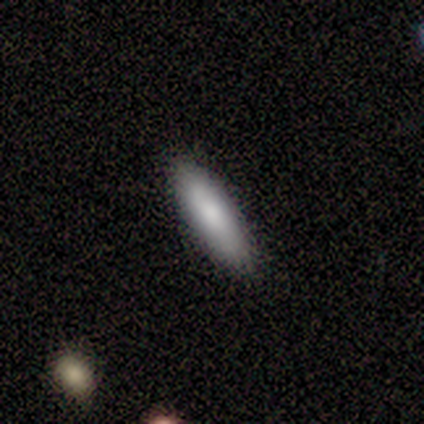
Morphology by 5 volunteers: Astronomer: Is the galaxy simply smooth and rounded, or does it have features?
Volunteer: smooth — 100%.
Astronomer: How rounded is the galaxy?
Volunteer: cigar-shaped — 80%.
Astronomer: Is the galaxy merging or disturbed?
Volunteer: none — 80%.